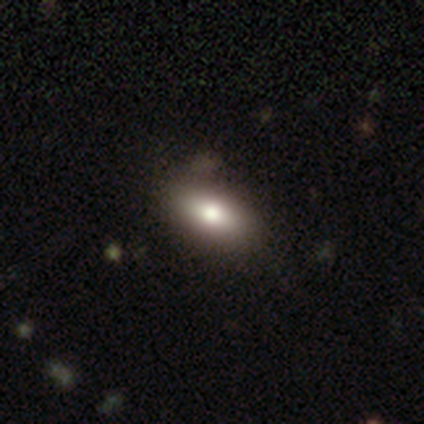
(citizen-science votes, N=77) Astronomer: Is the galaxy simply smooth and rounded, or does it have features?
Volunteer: smooth — 86%.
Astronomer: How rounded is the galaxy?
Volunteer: in between — 98%.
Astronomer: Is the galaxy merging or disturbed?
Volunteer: none — 43%.